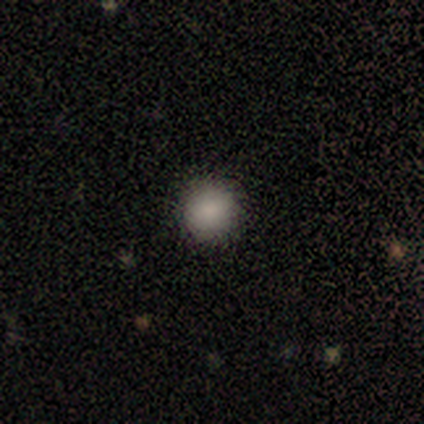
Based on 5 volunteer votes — Morphology: type=smooth (100%); roundness=round (100%); merging=none (100%).